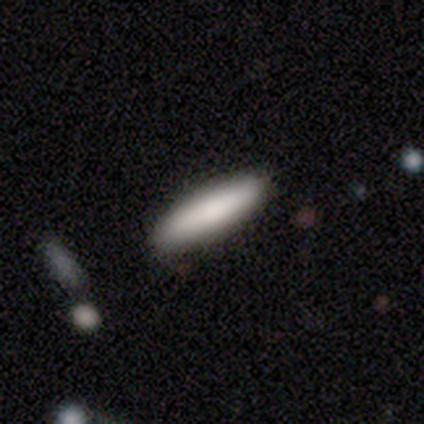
Smooth or featured? 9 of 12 (75%) said smooth. How rounded? 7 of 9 (78%) said cigar-shaped. Merging? 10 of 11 (91%) said none.